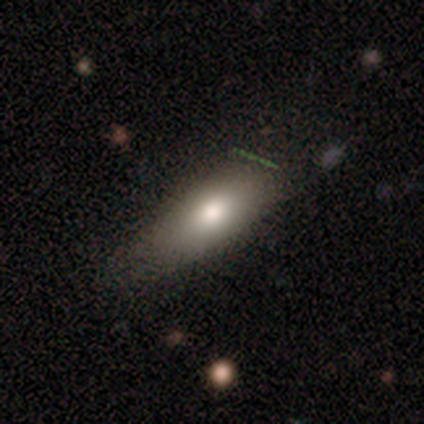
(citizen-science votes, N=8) Smooth or featured: smooth — 50% (tied with featured or disk — 50%)
How rounded: in between — 75% (cigar-shaped — 25%)
Merging: minor disturbance — 62% (none — 25%)